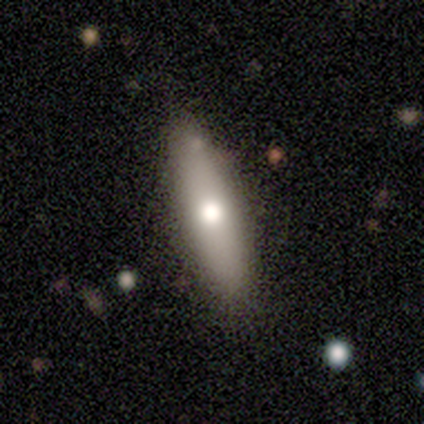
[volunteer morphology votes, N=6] smooth-or-featured: smooth: 67% | featured or disk: 33% | star or artifact: 0%
  how-rounded: in between: 75% | cigar-shaped: 25% | round: 0%
  merging: none: 100% | minor disturbance: 0% | major disturbance: 0% | merger: 0%